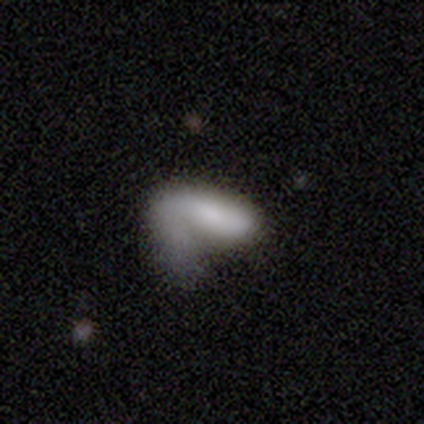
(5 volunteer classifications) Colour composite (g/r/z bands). It shows a smooth galaxy with no disk features (60%) that is in between round and cigar-shaped (100%). Merging: major disturbance (100%).